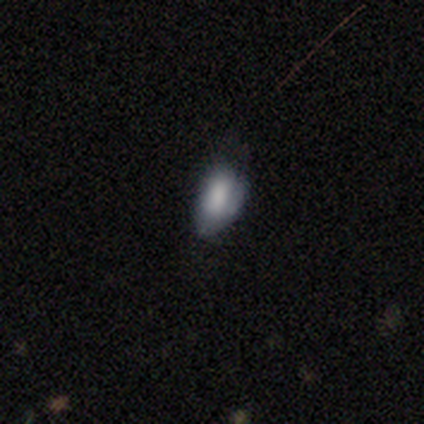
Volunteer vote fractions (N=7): Morphology: type=smooth (71%); roundness=in between (80%); merging=minor disturbance (57%).